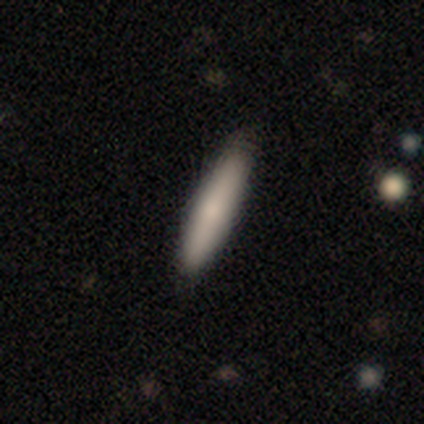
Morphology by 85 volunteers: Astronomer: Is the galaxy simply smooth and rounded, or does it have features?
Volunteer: smooth — 80%.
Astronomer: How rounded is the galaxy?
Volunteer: cigar-shaped — 94%.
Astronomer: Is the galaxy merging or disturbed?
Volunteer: none — 83%.